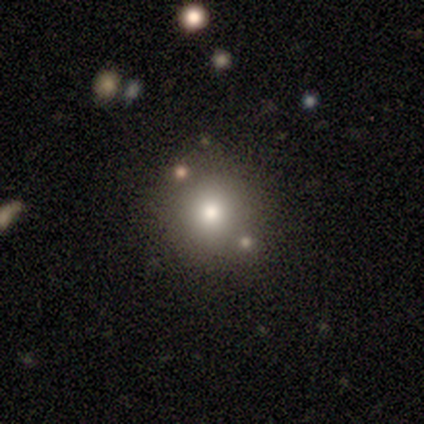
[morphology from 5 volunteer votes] Smooth or featured: smooth — 80% (featured or disk — 20%)
How rounded: round — 100%
Merging: none — 100%